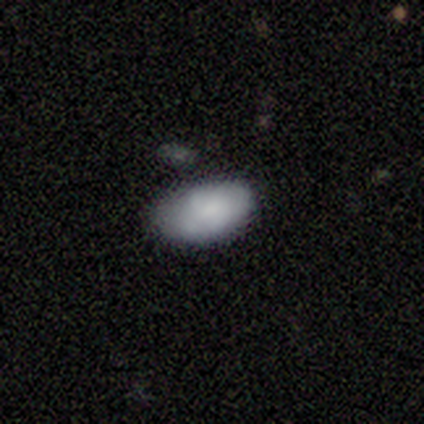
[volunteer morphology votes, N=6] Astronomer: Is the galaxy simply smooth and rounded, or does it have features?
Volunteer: smooth — 83%.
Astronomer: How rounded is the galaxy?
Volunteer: in between — 80%.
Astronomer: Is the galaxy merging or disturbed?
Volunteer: none — 100%.